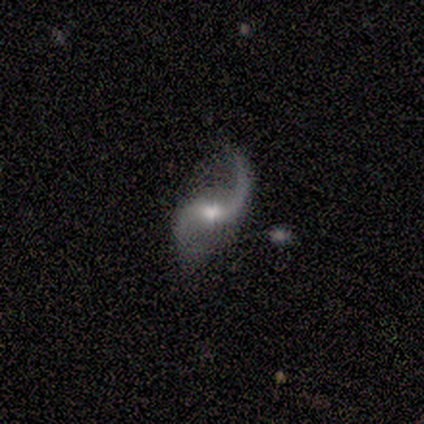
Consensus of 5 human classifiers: This is clearly a featured or disk galaxy (100%). It is clearly not viewed edge-on (100%). Bar: likely weak (60%). Spiral arm pattern: clearly yes (100%). Spiral arm count: clearly 2 (100%). Spiral winding: likely loose (60%). Central bulge: clearly moderate (80%). Merging: clearly none (100%).